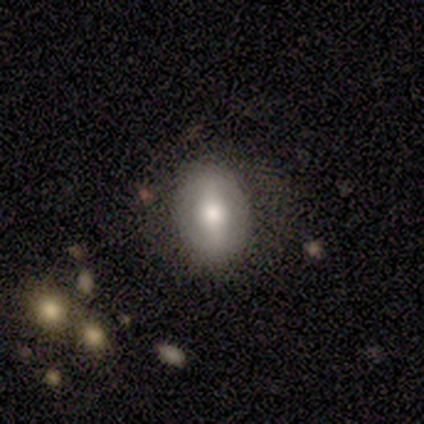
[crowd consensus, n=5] smooth_or_featured: smooth (p=1.00)
how_rounded: in between (p=1.00)
merging: none (p=0.80) [alt: minor disturbance p=0.20]